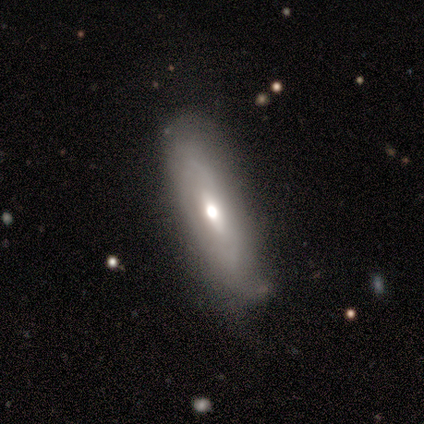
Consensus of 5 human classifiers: smooth_or_featured: featured or disk (p=0.60) [alt: smooth p=0.40]
disk_edge_on: no (p=0.67) [alt: yes p=0.33]
bar: weak (p=0.50) [tied with: no p=0.50]
has_spiral_arms: no (p=1.00)
bulge_size: small (p=1.00)
merging: none (p=0.80) [alt: minor disturbance p=0.20]